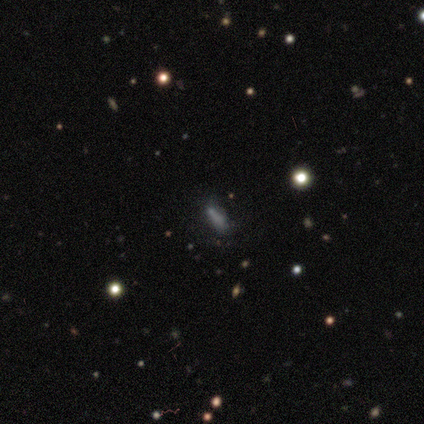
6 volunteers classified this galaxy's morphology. Smooth or featured? smooth (50%, tied with star or artifact)
How rounded? cigar-shaped (100%)
Merging? none (100%)